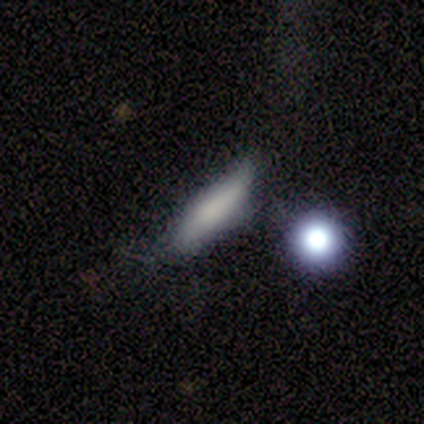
Smooth or featured?
  - smooth: 100% *
  - featured or disk: 0%
  - star or artifact: 0%
How rounded?
  - cigar-shaped: 75% *
  - in between: 25%
  - round: 0%
Merging?
  - minor disturbance: 50% *
  - none: 25%
  - major disturbance: 25%
  - merger: 0%